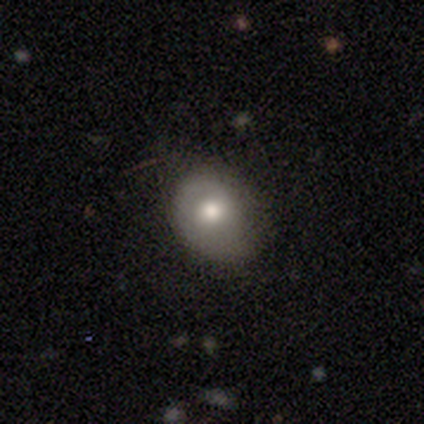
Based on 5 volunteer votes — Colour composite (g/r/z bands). It shows a smooth galaxy with no disk features (60%) that is in between round and cigar-shaped (67%). Merging: none (80%).